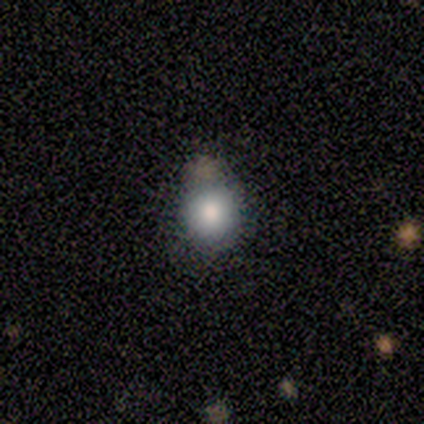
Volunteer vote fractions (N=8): Overall: smooth (62%; featured or disk 25%). How rounded: round (100%). Merging: none (71%).